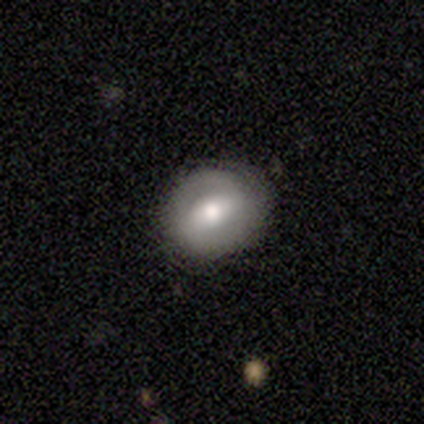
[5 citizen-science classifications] A smooth galaxy with no disk features (60%) that is round (100%).

Vote fractions:
- Smooth or featured? smooth: 60% / featured or disk: 40% / star or artifact: 0%
- How rounded? round: 100% / in between: 0% / cigar-shaped: 0%
- Merging? none: 100% / minor disturbance: 0% / major disturbance: 0% / merger: 0%